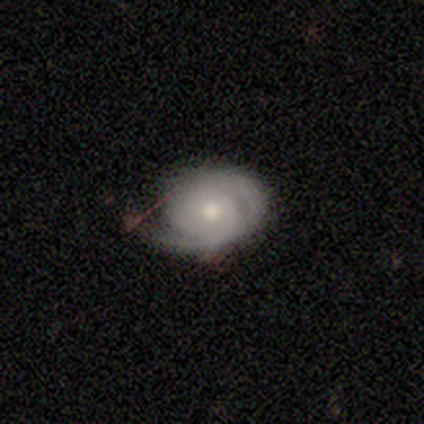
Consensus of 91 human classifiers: This appears to be a featured or disk galaxy (84%) with no bar (70%), 2 (63%) tight (66%) spiral arms (93%) and a small central bulge (52%). Merging: none (63%).